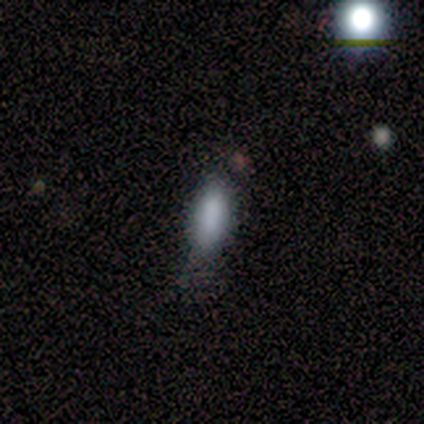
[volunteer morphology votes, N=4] type=smooth (75%); roundness=in between (67%); merging=none (50%, tied with minor disturbance).